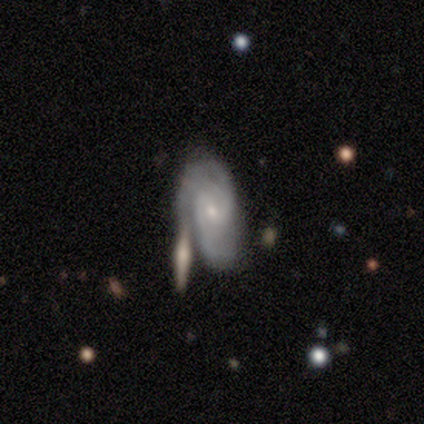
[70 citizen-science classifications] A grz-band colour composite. It shows a featured or disk galaxy (80%) with no bar (50%), 2 (65%) tight (45%, tied with medium) spiral arms (94%) and a small central bulge (72%). Merging: none (41%).